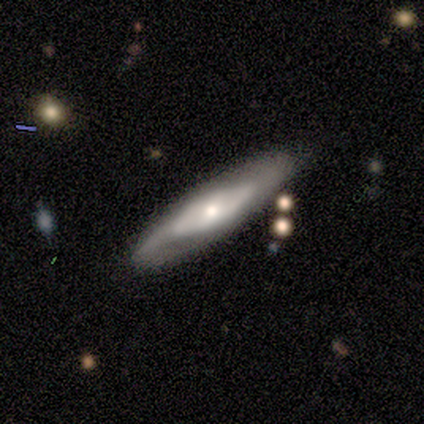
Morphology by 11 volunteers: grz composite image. It shows a featured or disk galaxy (91%) with no bar (67%), 2 (100%) medium (60%) spiral arms (83%) and a moderate central bulge (83%). Merging: none (82%).